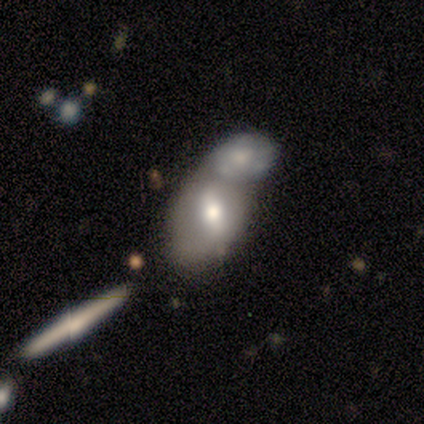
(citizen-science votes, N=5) smooth-or-featured: featured or disk: 80% | smooth: 20% | star or artifact: 0%
  disk-edge-on: no: 100% | yes: 0%
    bar: strong: 50% (tied) | weak: 50% (tied) | no: 0%
    has-spiral-arms: no: 100% | yes: 0%
    bulge-size: moderate: 50% (tied) | small: 50% (tied) | dominant: 0% | large: 0% | none: 0%
  merging: merger: 100% | none: 0% | minor disturbance: 0% | major disturbance: 0%